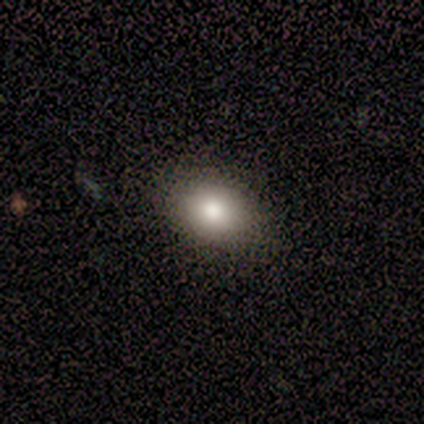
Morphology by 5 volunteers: smooth 80%, star or artifact 20%, featured or disk 0%. Down the decision tree: how rounded — in between (75%); merging — none (75%).